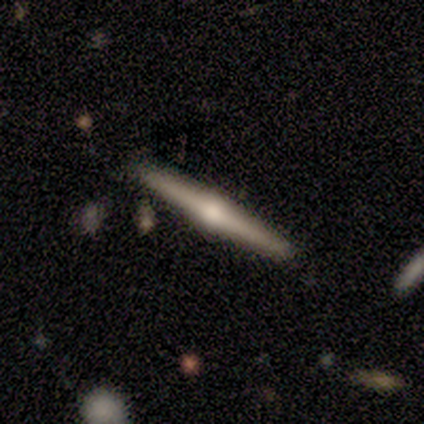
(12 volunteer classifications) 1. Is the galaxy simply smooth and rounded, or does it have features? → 75% featured or disk, 25% smooth, 0% star or artifact.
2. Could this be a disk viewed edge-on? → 100% yes, 0% no.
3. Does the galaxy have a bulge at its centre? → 100% rounded, 0% boxy, 0% none.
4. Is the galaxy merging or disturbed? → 100% none, 0% minor disturbance, 0% major disturbance, 0% merger.